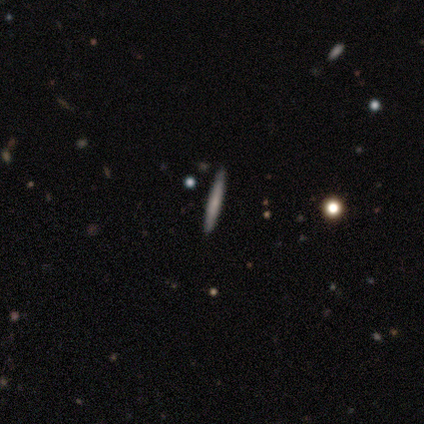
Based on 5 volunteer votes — Volunteers were most divided on "smooth or featured": smooth: 60%, featured or disk: 40%, star or artifact: 0%. More confident: how rounded — cigar-shaped (100%); merging — none (100%).